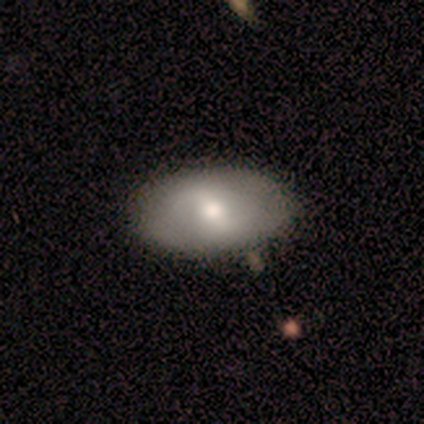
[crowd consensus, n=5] Smooth or featured: featured or disk — 60% (smooth — 40%)
Edge-on disk: no — 67% (yes — 33%)
Bar: strong — 50% (tied with weak — 50%)
Spiral arms: no — 100%
Bulge size: moderate — 100%
Merging: none — 80% (minor disturbance — 20%)